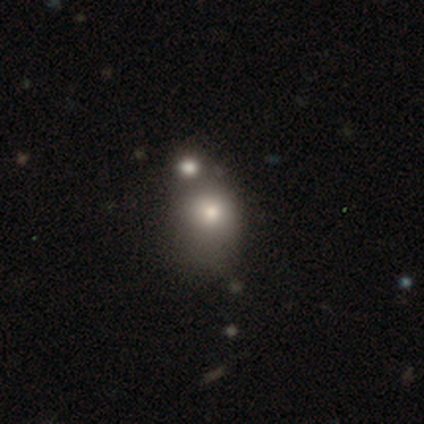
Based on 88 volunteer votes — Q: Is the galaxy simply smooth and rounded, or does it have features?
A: smooth — 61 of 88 (69%).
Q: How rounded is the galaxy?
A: round — 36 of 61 (59%).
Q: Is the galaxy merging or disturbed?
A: merger — 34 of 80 (42%).